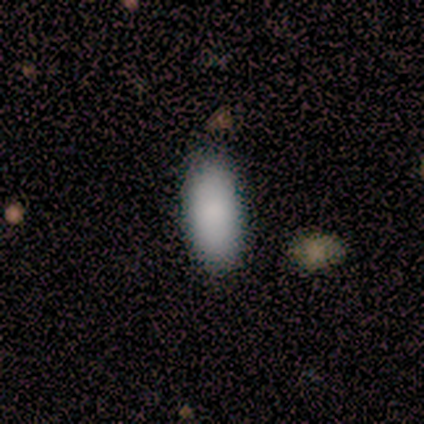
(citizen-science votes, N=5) Volunteers were most divided on "how rounded": in between: 80%, cigar-shaped: 20%, round: 0%. More confident: smooth or featured — smooth (100%); merging — none (80%).